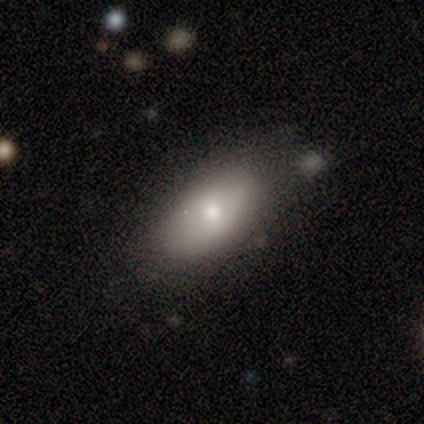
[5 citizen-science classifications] Smooth or featured: smooth — 80% (featured or disk — 20%)
How rounded: in between — 100%
Merging: none — 80% (minor disturbance — 20%)